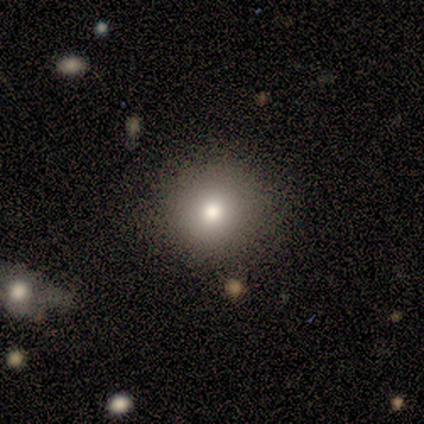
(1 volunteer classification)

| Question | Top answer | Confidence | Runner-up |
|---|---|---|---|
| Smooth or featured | featured or disk | 100% | — |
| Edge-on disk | no | 100% | — |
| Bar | no | 100% | — |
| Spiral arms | no | 100% | — |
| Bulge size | small | 100% | — |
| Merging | none | 100% | — |